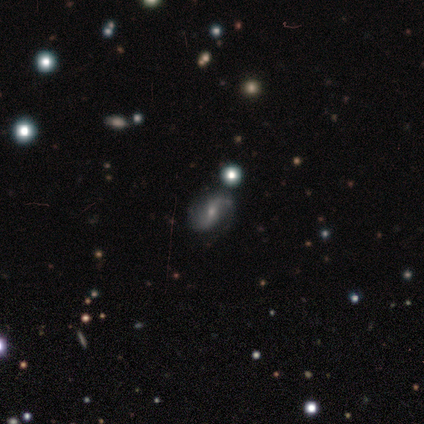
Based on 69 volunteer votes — This is clearly a featured or disk galaxy (87%). It is clearly not viewed edge-on (97%). Bar: marginally weak (43%). Spiral arm pattern: clearly yes (95%). Spiral arm count: clearly 2 (85%). Spiral winding: possibly loose (56%). Central bulge: possibly small (55%). Merging: clearly none (82%).